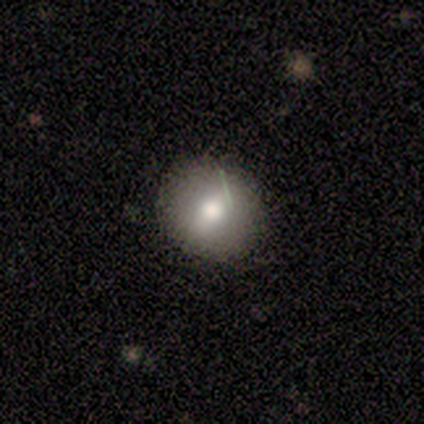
Smooth or featured? 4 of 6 (67%) said smooth. How rounded? 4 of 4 (100%) said round. Merging? 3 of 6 (50%, tied with minor disturbance) said none.